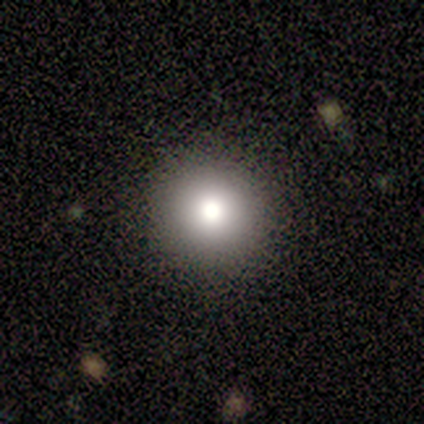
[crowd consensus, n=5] A smooth galaxy with no disk features (100%) that is round (100%). Merging: none (100%).